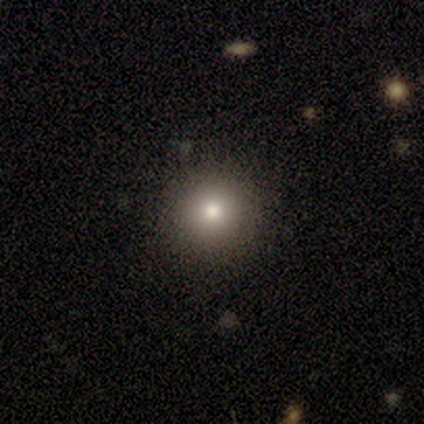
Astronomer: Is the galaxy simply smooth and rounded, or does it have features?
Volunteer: smooth — 61%.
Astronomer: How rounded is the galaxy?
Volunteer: round — 96%.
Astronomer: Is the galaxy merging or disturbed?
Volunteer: none — 82%.